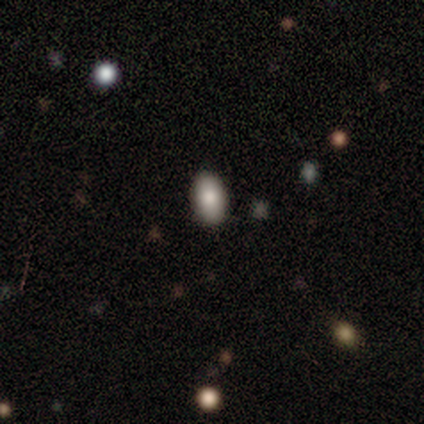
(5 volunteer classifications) Q: Smooth or featured?
A: smooth (80%); runner-up: star or artifact (20%)
Q: How rounded?
A: in between (100%)
Q: Merging?
A: none (100%)